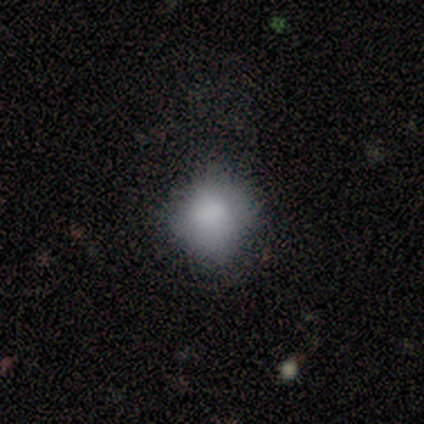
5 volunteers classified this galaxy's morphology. This appears to be a smooth galaxy with no disk features (100%) that is round (100%). Merging: none (60%).